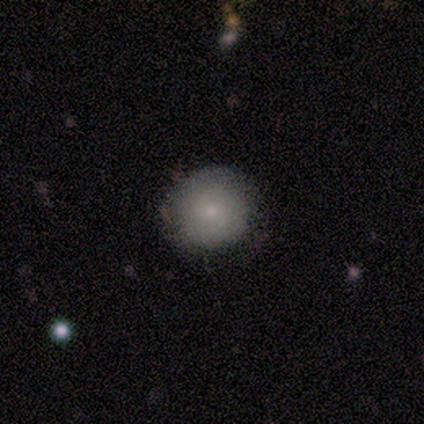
smooth-or-featured: smooth: 80% | featured or disk: 20% | star or artifact: 0%
  how-rounded: round: 100% | in between: 0% | cigar-shaped: 0%
  merging: none: 100% | minor disturbance: 0% | major disturbance: 0% | merger: 0%